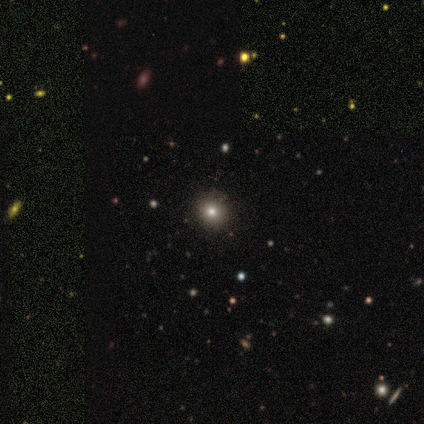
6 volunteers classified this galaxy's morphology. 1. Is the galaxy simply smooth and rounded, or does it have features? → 67% smooth, 33% star or artifact, 0% featured or disk.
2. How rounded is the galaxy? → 100% round, 0% in between, 0% cigar-shaped.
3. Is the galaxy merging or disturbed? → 75% none, 25% minor disturbance, 0% major disturbance, 0% merger.